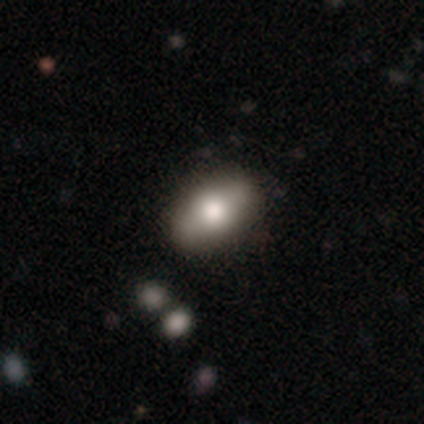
Smooth or featured? featured or disk (50%)
Edge-on disk? yes (67%)
Edge-on bulge? rounded (100%)
Merging? none (100%)